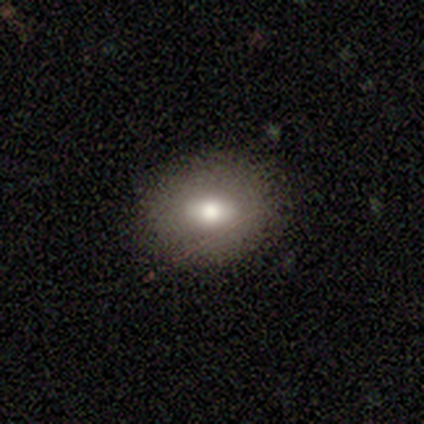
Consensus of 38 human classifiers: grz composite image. It shows a smooth galaxy with no disk features (68%) that is in between round and cigar-shaped (69%). Merging: none (95%).